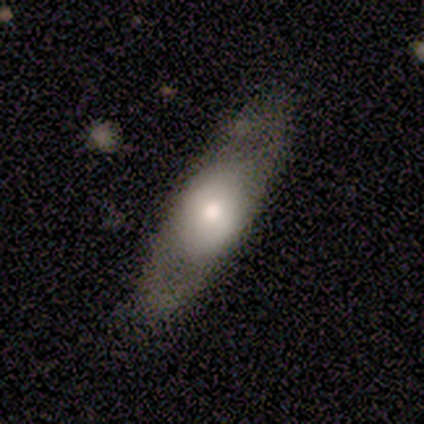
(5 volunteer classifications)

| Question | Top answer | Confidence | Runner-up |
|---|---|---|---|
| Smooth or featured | smooth | 60% | featured or disk (40%) |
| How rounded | cigar-shaped | 67% | in between (33%) |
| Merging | none | 100% | — |